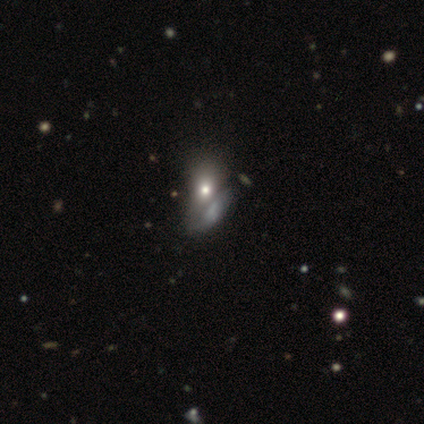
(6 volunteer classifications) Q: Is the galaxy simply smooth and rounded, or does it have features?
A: smooth — 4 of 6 (67%).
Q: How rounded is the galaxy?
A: in between — 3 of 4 (75%).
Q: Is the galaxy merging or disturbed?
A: none — 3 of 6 (50%).